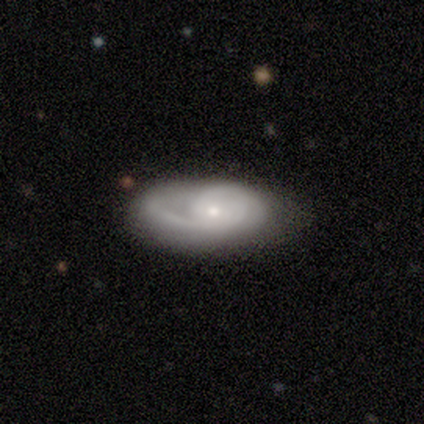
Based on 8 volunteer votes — smooth_or_featured: featured or disk (p=0.50) [alt: smooth p=0.25]
disk_edge_on: no (p=1.00)
bar: weak (p=0.50) [tied with: no p=0.50]
has_spiral_arms: yes (p=1.00)
spiral_winding: tight (p=0.75) [alt: medium p=0.25]
spiral_arm_count: 1 (p=0.50) [tied with: 2 p=0.50]
bulge_size: small (p=0.75) [alt: moderate p=0.25]
merging: none (p=0.67) [alt: minor disturbance p=0.17]